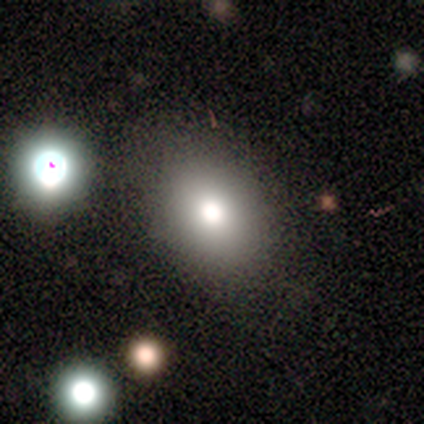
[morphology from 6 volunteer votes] A smooth galaxy with no disk features (50%) that is in between round and cigar-shaped (67%).

Vote fractions:
- Smooth or featured? smooth: 50% / featured or disk: 33% / star or artifact: 17%
- How rounded? in between: 67% / round: 33% / cigar-shaped: 0%
- Merging? none: 80% / merger: 20% / minor disturbance: 0% / major disturbance: 0%